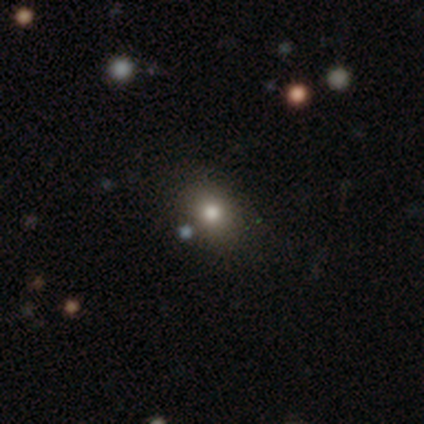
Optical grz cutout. It shows a smooth galaxy with no disk features (100%) that is in between round and cigar-shaped (67%). Merging: none (100%).